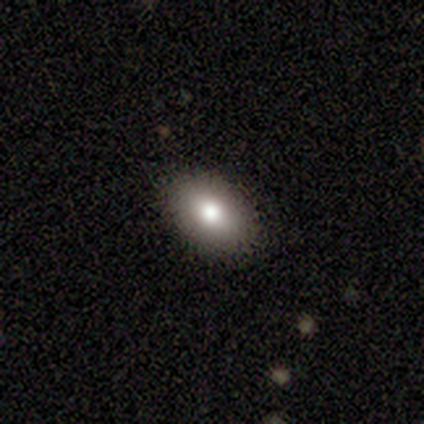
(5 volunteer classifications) A smooth galaxy with no disk features (60%) that is in between round and cigar-shaped (100%).

Vote fractions:
- Smooth or featured? smooth: 60% / featured or disk: 40% / star or artifact: 0%
- How rounded? in between: 100% / round: 0% / cigar-shaped: 0%
- Merging? none: 100% / minor disturbance: 0% / major disturbance: 0% / merger: 0%